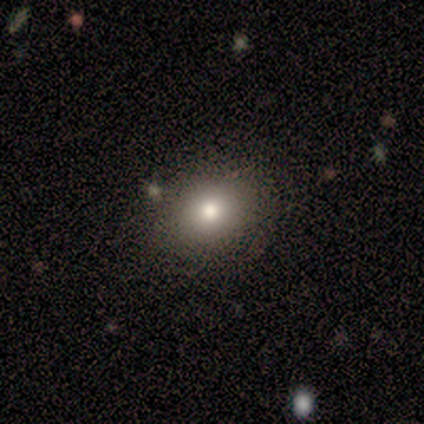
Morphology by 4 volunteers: Q: Smooth or featured?
A: smooth (75%); runner-up: star or artifact (25%)
Q: How rounded?
A: in between (67%); runner-up: round (33%)
Q: Merging?
A: none (100%)